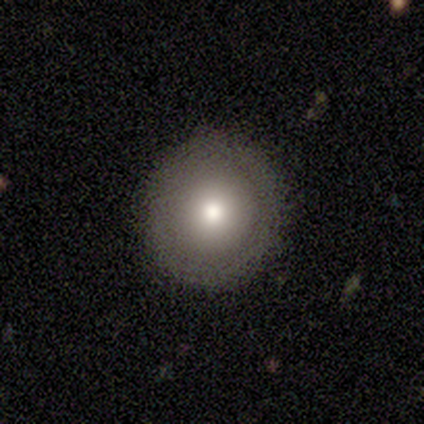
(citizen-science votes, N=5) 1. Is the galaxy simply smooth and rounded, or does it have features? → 80% smooth, 20% star or artifact, 0% featured or disk.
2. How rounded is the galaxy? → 100% round, 0% in between, 0% cigar-shaped.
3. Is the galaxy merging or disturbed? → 100% none, 0% minor disturbance, 0% major disturbance, 0% merger.